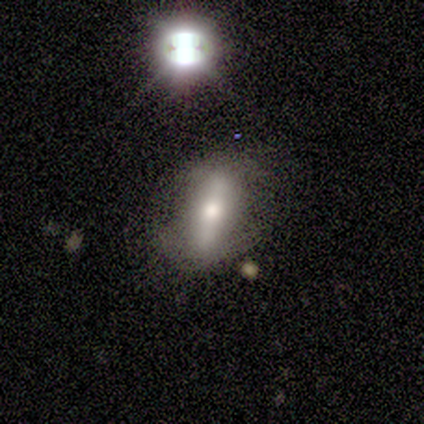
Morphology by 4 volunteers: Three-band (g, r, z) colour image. It shows a smooth galaxy with no disk features (50%) that is round (50%, tied with in between). Merging: none (67%).